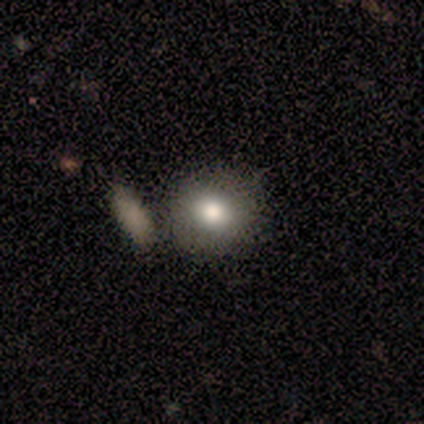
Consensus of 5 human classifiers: Morphology: type=smooth (60%); roundness=round (67%); merging=none (80%).